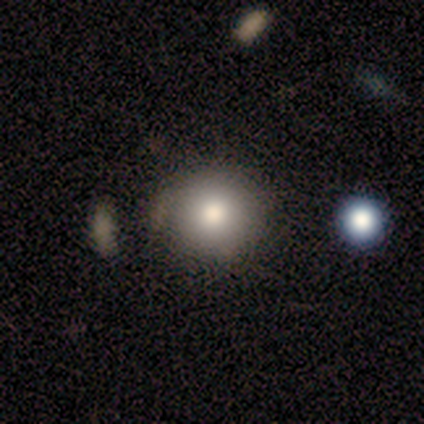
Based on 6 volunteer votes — Smooth or featured: smooth — 100%
How rounded: round — 100%
Merging: none — 83% (minor disturbance — 17%)